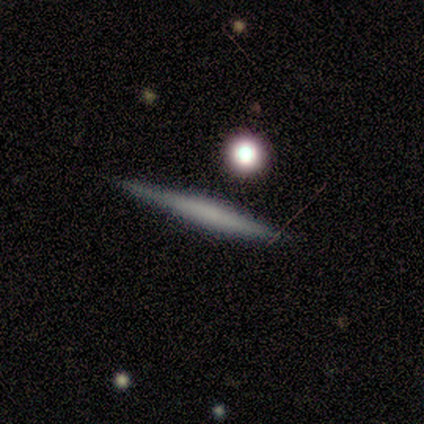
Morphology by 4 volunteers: type=featured or disk (75%); edge-on=yes (100%); edge-on bulge=none (67%); merging=none (75%).